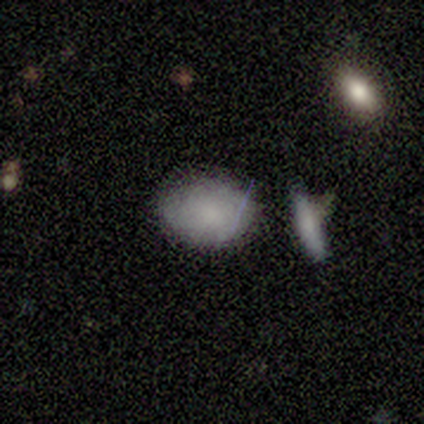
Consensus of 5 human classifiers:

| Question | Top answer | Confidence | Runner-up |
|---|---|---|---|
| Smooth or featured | smooth | 100% | — |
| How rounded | in between | 80% | round (20%) |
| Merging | merger | 80% | none (20%) |